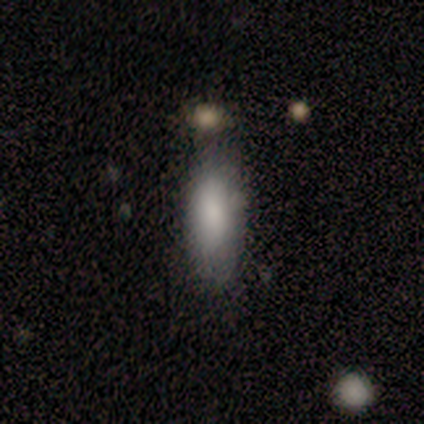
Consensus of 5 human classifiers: smooth_or_featured: smooth (p=1.00)
how_rounded: in between (p=0.60) [alt: cigar-shaped p=0.40]
merging: none (p=1.00)